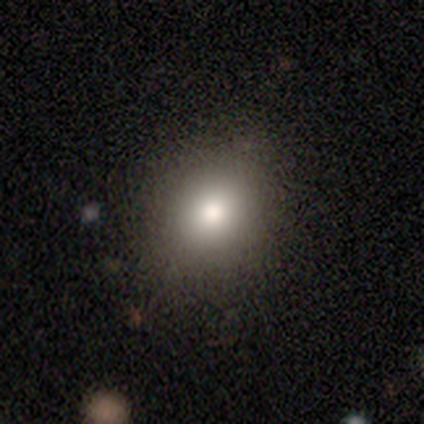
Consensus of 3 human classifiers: Overall: featured or disk (67%; smooth 33%). Edge-on disk: no (100%). Bar: no (100%). Spiral arms: no (100%). Bulge size: moderate (100%). Merging: none (100%).